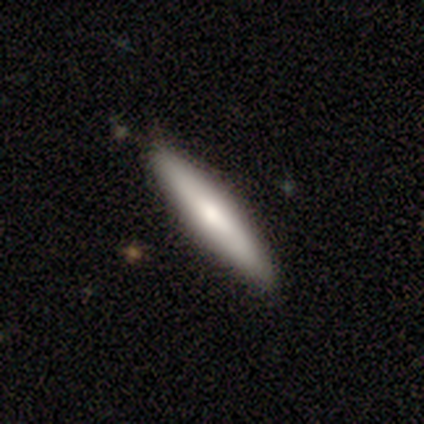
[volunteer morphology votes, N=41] This is likely a smooth galaxy (71%). How rounded: clearly cigar-shaped (93%). Merging: clearly none (92%).